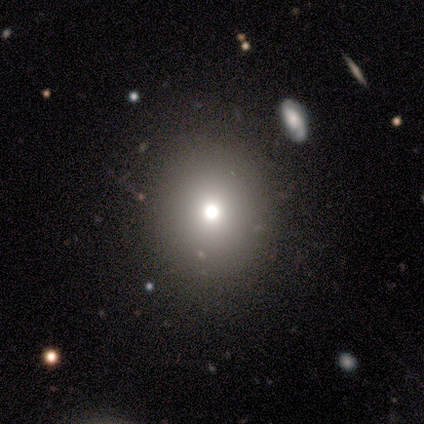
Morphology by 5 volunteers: Smooth or featured: smooth — 80% (star or artifact — 20%)
How rounded: round — 100%
Merging: none — 50% (tied with minor disturbance — 50%)